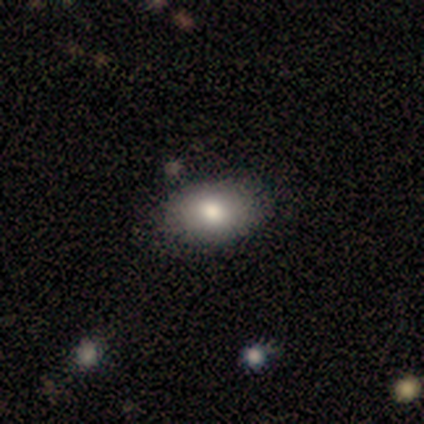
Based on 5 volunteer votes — Smooth or featured? 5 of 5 (100%) said smooth. How rounded? 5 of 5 (100%) said in between. Merging? 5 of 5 (100%) said none.